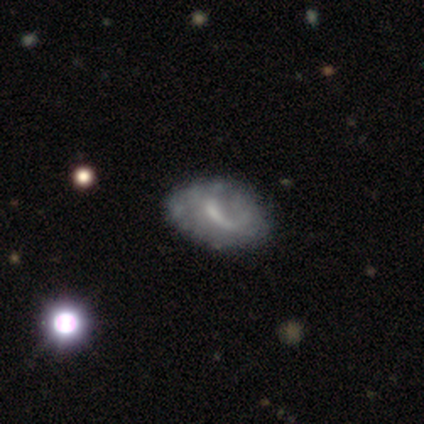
Overall: featured or disk (80%). Edge-on disk: no (100%). Bar: weak (75%). Spiral arms: no (75%). Bulge size: small (75%). Merging: none (40%, tied with minor disturbance).